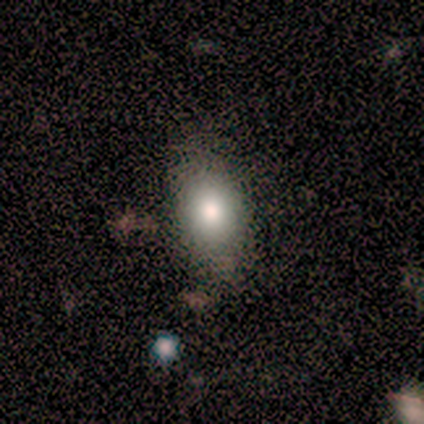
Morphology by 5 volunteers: Q: Smooth or featured?
A: smooth (60%); runner-up: featured or disk (40%)
Q: How rounded?
A: in between (67%); runner-up: round (33%)
Q: Merging?
A: none (80%); runner-up: minor disturbance (20%)